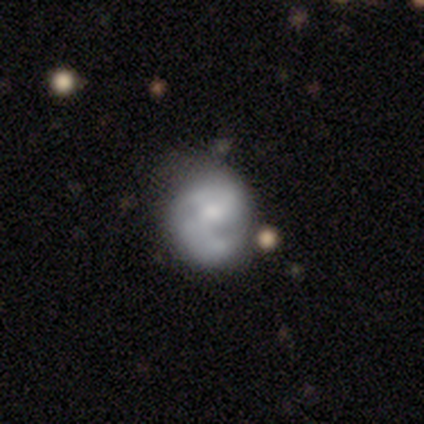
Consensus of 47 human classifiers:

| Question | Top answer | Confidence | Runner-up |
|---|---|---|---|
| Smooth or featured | featured or disk | 66% | smooth (28%) |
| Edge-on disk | no | 100% | — |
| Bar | no | 61% | weak (35%) |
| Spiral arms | yes | 74% | no (26%) |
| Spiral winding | medium | 43% | tight (39%) |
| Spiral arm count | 2 | 52% | can't tell (26%) |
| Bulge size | moderate | 39% | small (35%) |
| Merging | none | 57% | minor disturbance (30%) |